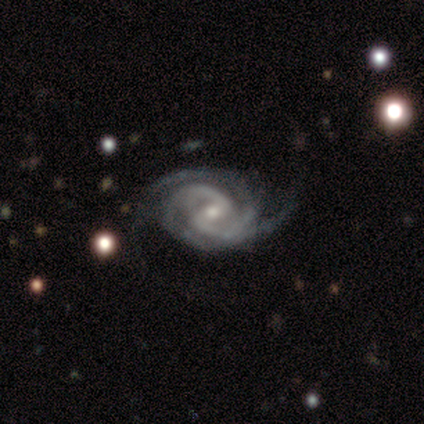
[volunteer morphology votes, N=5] This is clearly a featured or disk galaxy (100%). It is clearly not viewed edge-on (100%). Bar: likely weak (60%). Spiral arm pattern: clearly yes (100%). Spiral arm count: clearly 2 (80%). Spiral winding: clearly tight (80%). Central bulge: likely moderate (60%). Merging: marginally none (40%, tied with minor disturbance).